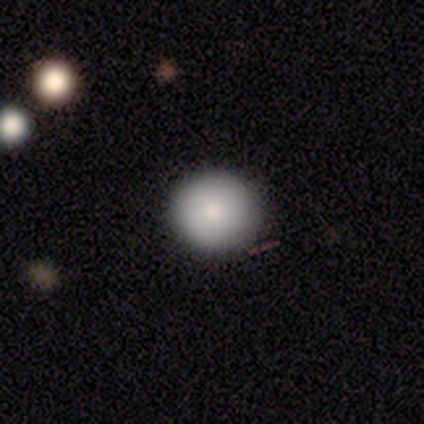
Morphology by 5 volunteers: Smooth or featured: smooth — 80% (star or artifact — 20%)
How rounded: round — 100%
Merging: none — 75% (minor disturbance — 25%)